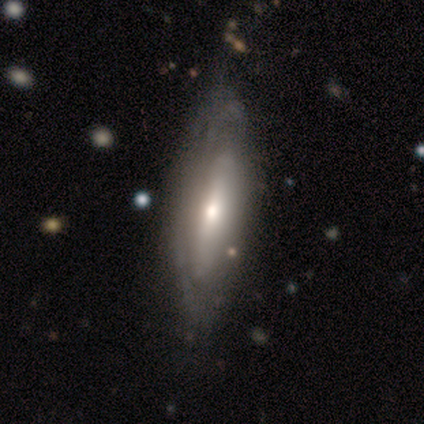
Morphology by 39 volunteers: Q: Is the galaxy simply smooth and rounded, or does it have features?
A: featured or disk — 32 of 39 (82%).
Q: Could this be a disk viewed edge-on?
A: no — 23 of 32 (72%).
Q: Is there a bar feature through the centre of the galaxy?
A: no — 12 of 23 (52%).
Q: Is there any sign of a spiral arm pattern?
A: yes — 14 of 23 (61%).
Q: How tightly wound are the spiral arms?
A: tight — 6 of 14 (43%).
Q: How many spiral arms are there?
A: can't tell — 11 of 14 (79%).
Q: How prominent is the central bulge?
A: moderate — 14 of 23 (61%).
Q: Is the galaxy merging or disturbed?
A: none — 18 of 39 (46%).